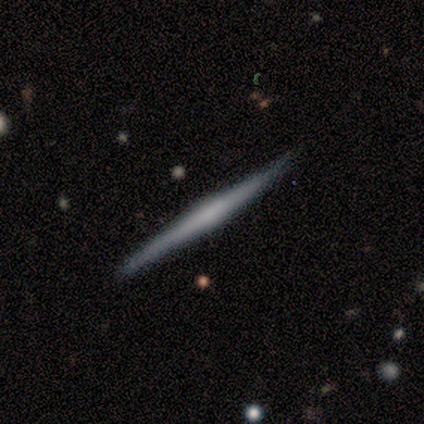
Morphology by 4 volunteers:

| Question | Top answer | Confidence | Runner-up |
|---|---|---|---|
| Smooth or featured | smooth | 50% | tied: featured or disk (50%) |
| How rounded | cigar-shaped | 100% | — |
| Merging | none | 75% | minor disturbance (25%) |